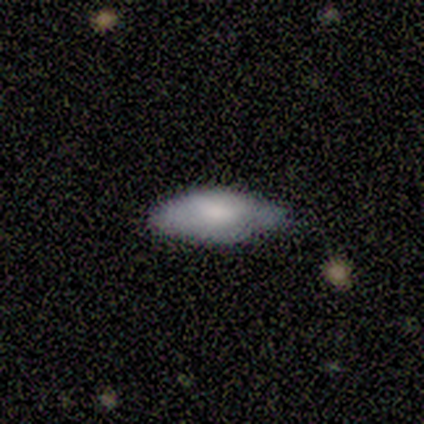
smooth 84%, featured or disk 8%, star or artifact 8%. Down the decision tree: how rounded — in between (78%); merging — none (66%).